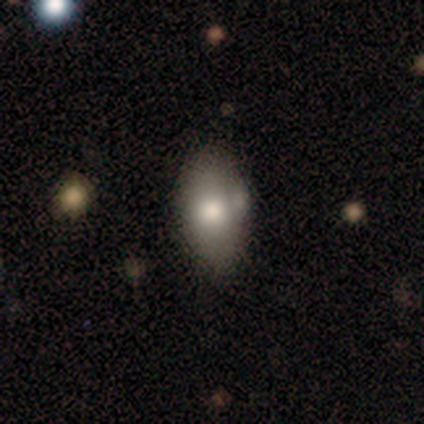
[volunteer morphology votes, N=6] type=smooth (100%); roundness=in between (83%); merging=none (50%, tied with minor disturbance).